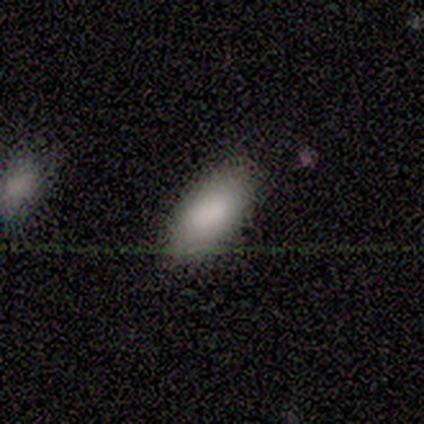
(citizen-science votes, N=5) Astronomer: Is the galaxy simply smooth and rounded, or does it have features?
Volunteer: smooth — 100%.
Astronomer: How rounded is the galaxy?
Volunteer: in between — 100%.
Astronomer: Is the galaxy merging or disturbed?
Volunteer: none — 100%.